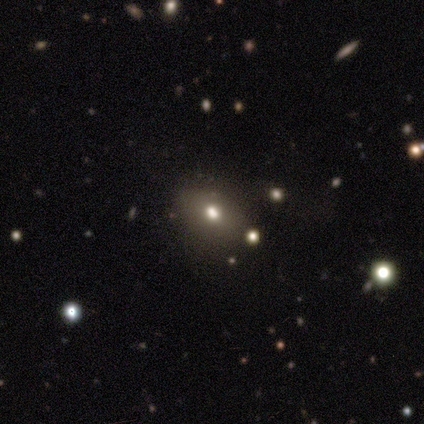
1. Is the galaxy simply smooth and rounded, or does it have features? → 60% smooth, 20% featured or disk, 20% star or artifact.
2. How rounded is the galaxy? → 67% in between, 33% round, 0% cigar-shaped.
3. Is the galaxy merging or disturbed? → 75% none, 25% minor disturbance, 0% major disturbance, 0% merger.